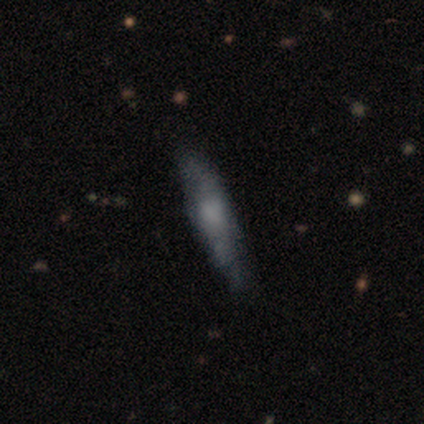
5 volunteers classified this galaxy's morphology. smooth 60%, featured or disk 40%, star or artifact 0%. Down the decision tree: how rounded — cigar-shaped (67%); merging — none (100%).